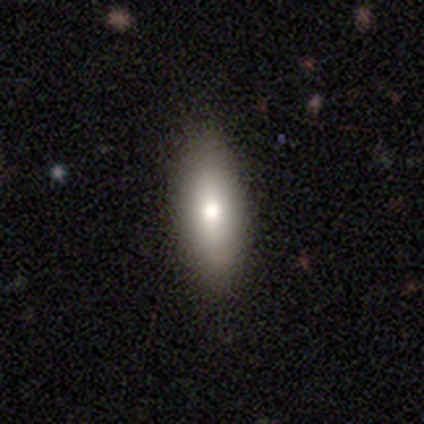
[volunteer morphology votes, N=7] Q: Smooth or featured?
A: smooth (100%)
Q: How rounded?
A: in between (86%); runner-up: cigar-shaped (14%)
Q: Merging?
A: none (100%)